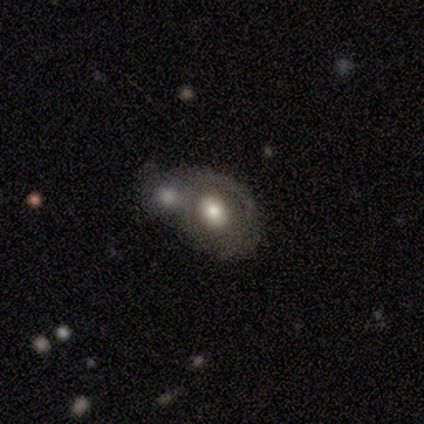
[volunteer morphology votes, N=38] This is marginally a smooth galaxy (45%, tied with featured or disk). How rounded: clearly in between (88%). Merging: possibly merger (59%).